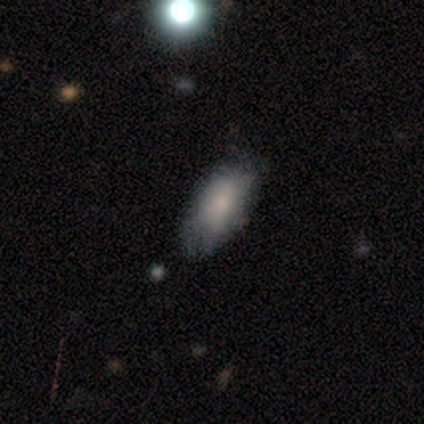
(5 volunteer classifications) Smooth or featured?
  - featured or disk: 60% *
  - smooth: 40%
  - star or artifact: 0%
Edge-on disk?
  - no: 67% *
  - yes: 33%
Bar?
  - no: 100% *
  - strong: 0%
  - weak: 0%
Spiral arms?
  - no: 100% *
  - yes: 0%
Bulge size?
  - small: 100% *
  - dominant: 0%
  - large: 0%
  - moderate: 0%
  - none: 0%
Merging?
  - none: 60% *
  - minor disturbance: 20%
  - merger: 20%
  - major disturbance: 0%